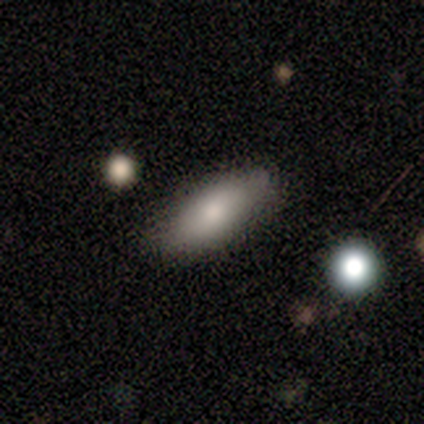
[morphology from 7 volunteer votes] Q: Smooth or featured?
A: smooth (86%); runner-up: featured or disk (14%)
Q: How rounded?
A: in between (83%); runner-up: cigar-shaped (17%)
Q: Merging?
A: none (86%); runner-up: minor disturbance (14%)